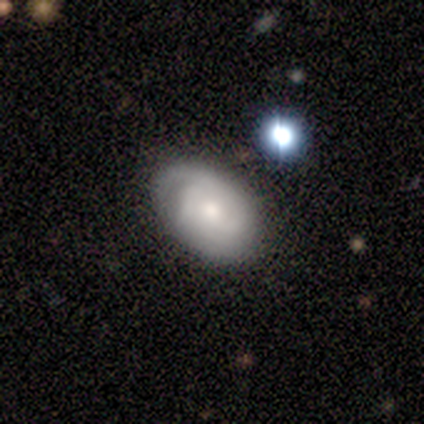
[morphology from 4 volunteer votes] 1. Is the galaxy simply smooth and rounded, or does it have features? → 100% featured or disk, 0% smooth, 0% star or artifact.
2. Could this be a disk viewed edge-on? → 100% no, 0% yes.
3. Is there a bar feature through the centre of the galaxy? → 75% no, 25% weak, 0% strong.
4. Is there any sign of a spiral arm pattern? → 100% yes, 0% no.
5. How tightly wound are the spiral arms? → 100% tight, 0% medium, 0% loose.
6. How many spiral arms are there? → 50% can't tell, 25% 2, 25% 3, 0% 1, 0% 4, 0% more than 4.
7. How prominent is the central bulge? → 75% moderate, 25% small, 0% dominant, 0% large, 0% none.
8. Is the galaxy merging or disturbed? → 75% none, 25% minor disturbance, 0% major disturbance, 0% merger.